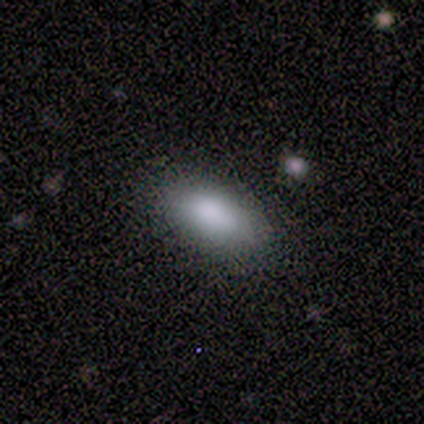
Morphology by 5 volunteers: Smooth or featured? smooth (100%)
How rounded? in between (80%)
Merging? none (100%)